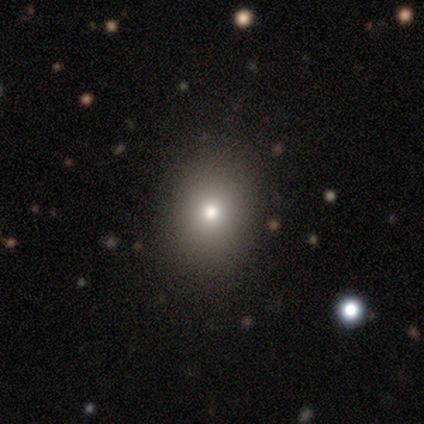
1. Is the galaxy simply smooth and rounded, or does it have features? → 100% smooth, 0% featured or disk, 0% star or artifact.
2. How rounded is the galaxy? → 100% round, 0% in between, 0% cigar-shaped.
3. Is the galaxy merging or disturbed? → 100% none, 0% minor disturbance, 0% major disturbance, 0% merger.